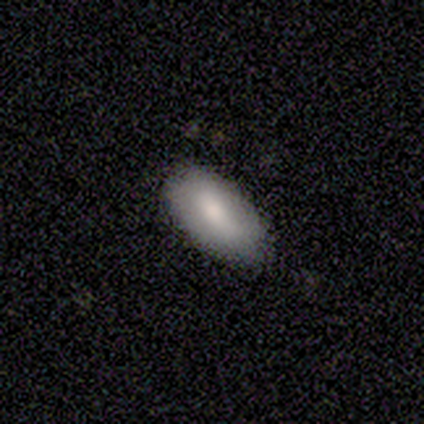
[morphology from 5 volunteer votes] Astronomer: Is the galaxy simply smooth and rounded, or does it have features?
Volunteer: smooth — 80%.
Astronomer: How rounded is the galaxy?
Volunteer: in between — 100%.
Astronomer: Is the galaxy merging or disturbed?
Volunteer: none — 80%.